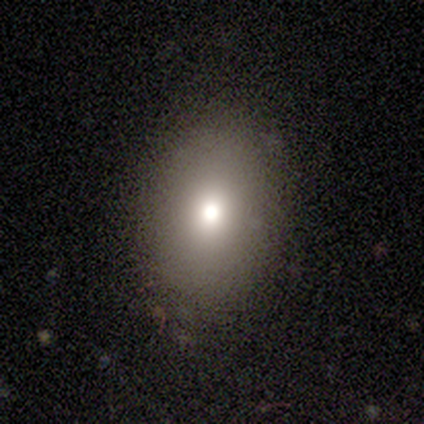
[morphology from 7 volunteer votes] Smooth or featured?
  - smooth: 57% *
  - star or artifact: 29%
  - featured or disk: 14%
How rounded?
  - in between: 100% *
  - round: 0%
  - cigar-shaped: 0%
Merging?
  - none: 60% *
  - minor disturbance: 40%
  - major disturbance: 0%
  - merger: 0%